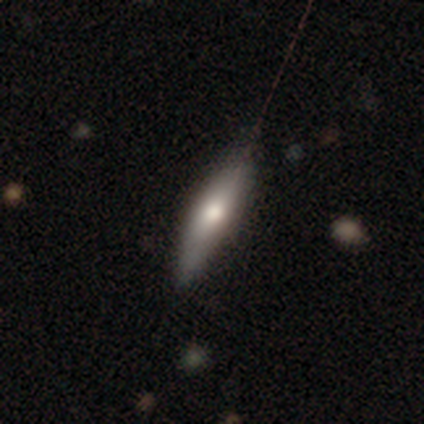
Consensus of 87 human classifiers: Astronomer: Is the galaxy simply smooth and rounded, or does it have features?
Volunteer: smooth — 57% (runner-up: featured or disk, 40%).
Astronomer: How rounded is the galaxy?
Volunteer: cigar-shaped — 78%.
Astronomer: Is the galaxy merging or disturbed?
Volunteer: none — 73%.